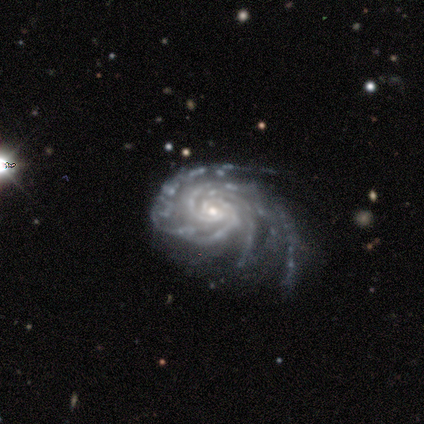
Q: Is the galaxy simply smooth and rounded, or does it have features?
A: featured or disk — 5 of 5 (100%).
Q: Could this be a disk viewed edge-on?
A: no — 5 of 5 (100%).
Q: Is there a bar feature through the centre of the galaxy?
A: no — 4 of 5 (80%).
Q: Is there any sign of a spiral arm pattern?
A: yes — 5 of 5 (100%).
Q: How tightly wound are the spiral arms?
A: tight — 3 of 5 (60%).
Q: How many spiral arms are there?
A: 4 — 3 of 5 (60%).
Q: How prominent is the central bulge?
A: small — 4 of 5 (80%).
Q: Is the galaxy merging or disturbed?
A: none — 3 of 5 (60%).